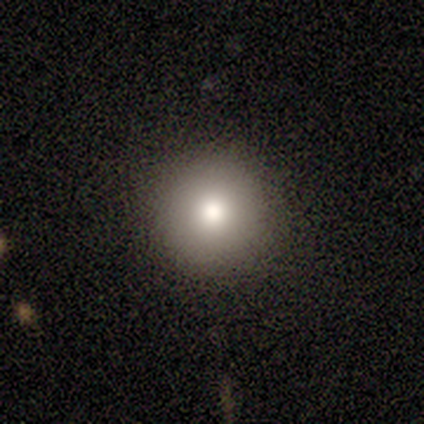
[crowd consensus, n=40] smooth_or_featured: smooth (p=0.85) [alt: featured or disk p=0.12]
how_rounded: round (p=0.91) [alt: in between p=0.06]
merging: none (p=0.90) [alt: minor disturbance p=0.08]